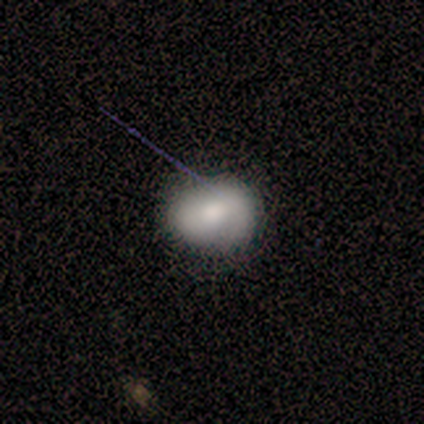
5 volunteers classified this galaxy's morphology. Smooth or featured? smooth (60%)
How rounded? round (100%)
Merging? none (100%)